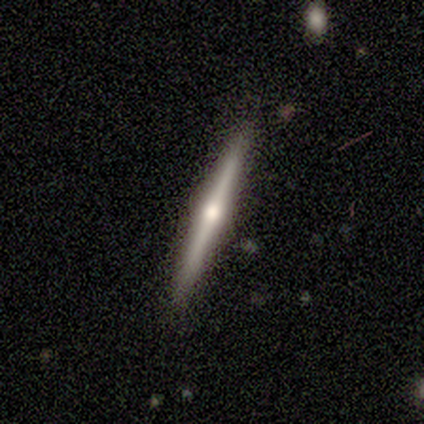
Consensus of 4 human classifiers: This appears to be a featured or disk galaxy (100%) viewed edge-on (100%) with a rounded central bulge (100%). Merging: none (100%).